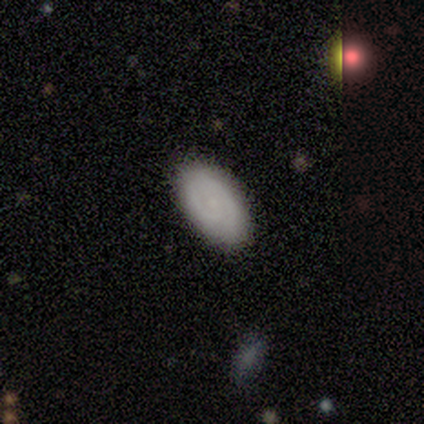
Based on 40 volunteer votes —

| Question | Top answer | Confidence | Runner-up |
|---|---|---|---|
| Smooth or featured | smooth | 62% | featured or disk (28%) |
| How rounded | in between | 92% | round (4%) |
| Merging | none | 94% | minor disturbance (3%) |